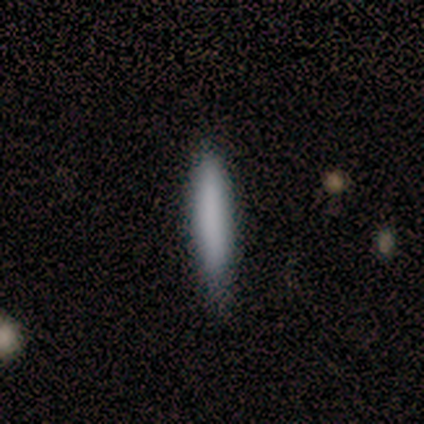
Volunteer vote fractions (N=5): smooth_or_featured: smooth (p=0.80) [alt: featured or disk p=0.20]
how_rounded: cigar-shaped (p=1.00)
merging: none (p=0.40) [tied with: minor disturbance p=0.40]